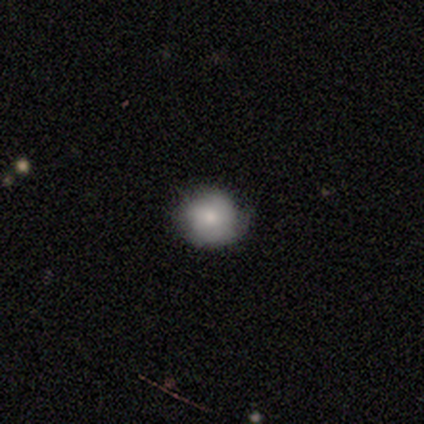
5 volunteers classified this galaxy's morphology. Volunteers were most divided on "smooth or featured": smooth: 60%, featured or disk: 40%, star or artifact: 0%. More confident: how rounded — round (100%); merging — minor disturbance (60%).